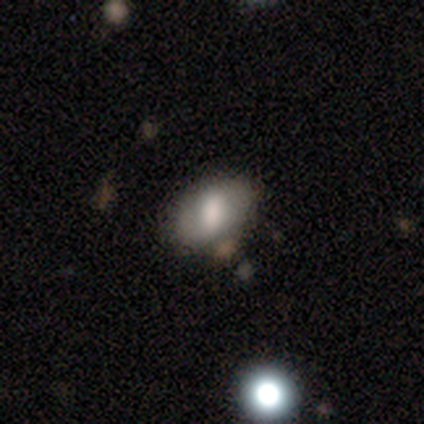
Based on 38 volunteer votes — Smooth or featured? 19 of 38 (50%) said smooth. How rounded? 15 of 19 (79%) said in between. Merging? 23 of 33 (70%) said none.